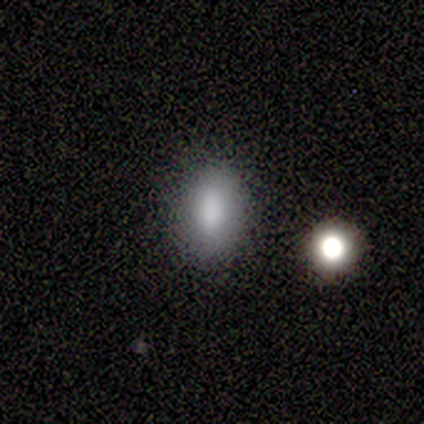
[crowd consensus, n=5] A smooth galaxy with no disk features (100%) that is in between round and cigar-shaped (100%). Merging: none (100%).